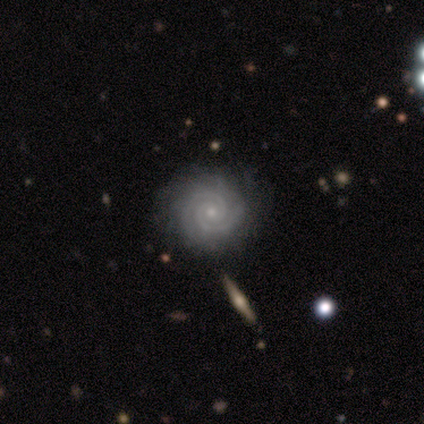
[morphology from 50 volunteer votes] This is clearly a featured or disk galaxy (92%). It is clearly not viewed edge-on (100%). Bar: likely no (78%). Spiral arm pattern: clearly yes (100%). Spiral arm count: clearly 2 (87%). Spiral winding: clearly tight (93%). Central bulge: clearly small (85%). Merging: likely none (79%).